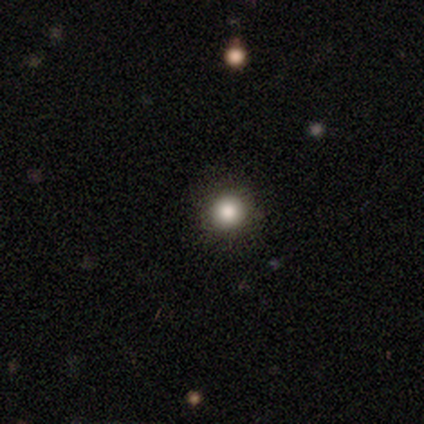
Volunteers were most divided on "smooth or featured": smooth: 83%, featured or disk: 17%, star or artifact: 0%. More confident: how rounded — round (100%); merging — none (100%).